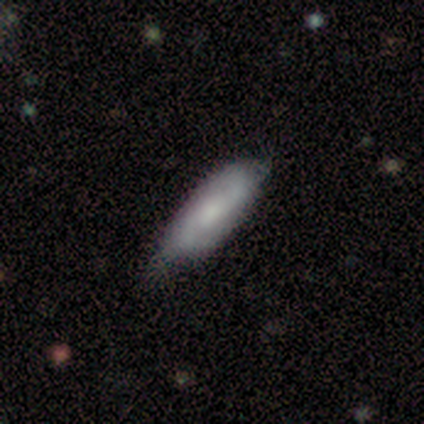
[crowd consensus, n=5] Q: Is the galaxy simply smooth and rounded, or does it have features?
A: featured or disk — 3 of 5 (60%).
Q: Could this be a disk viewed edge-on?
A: no — 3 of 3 (100%).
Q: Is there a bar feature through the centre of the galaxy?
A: weak — 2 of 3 (67%).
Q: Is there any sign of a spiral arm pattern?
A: yes — 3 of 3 (100%).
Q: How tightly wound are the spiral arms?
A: tight — 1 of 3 (33%, tied with medium and loose).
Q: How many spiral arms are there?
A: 2 — 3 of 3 (100%).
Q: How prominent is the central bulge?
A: small — 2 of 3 (67%).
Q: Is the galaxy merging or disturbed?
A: none — 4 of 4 (100%).